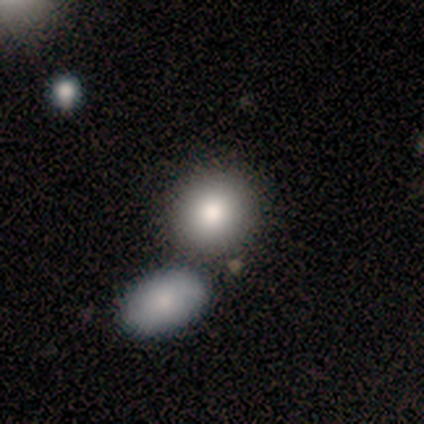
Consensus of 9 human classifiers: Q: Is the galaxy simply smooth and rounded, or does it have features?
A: smooth — 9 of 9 (100%).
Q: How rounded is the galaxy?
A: round — 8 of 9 (89%).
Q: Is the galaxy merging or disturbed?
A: none — 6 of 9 (67%).